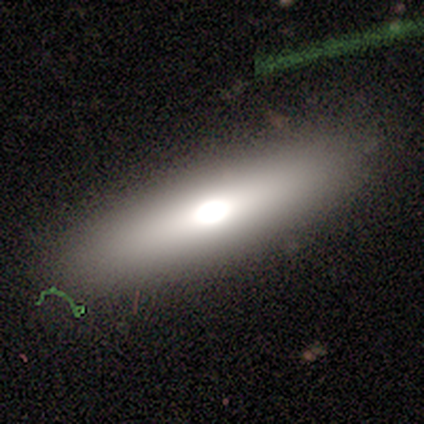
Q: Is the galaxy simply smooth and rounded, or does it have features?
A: smooth — 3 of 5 (60%).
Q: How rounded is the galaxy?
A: in between — 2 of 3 (67%).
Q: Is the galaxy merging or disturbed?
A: none — 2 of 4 (50%, tied with minor disturbance).